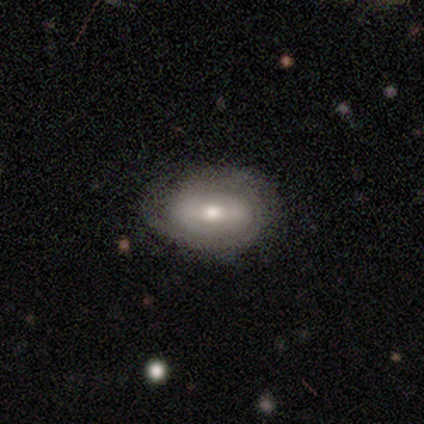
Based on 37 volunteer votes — smooth_or_featured: featured or disk (p=0.49) [alt: smooth p=0.41]
disk_edge_on: no (p=1.00)
bar: no (p=0.44) [alt: strong p=0.33]
has_spiral_arms: yes (p=0.67) [alt: no p=0.33]
spiral_winding: tight (p=1.00)
spiral_arm_count: can't tell (p=0.50) [alt: 2 p=0.33]
bulge_size: moderate (p=0.72) [alt: small p=0.22]
merging: none (p=0.70) [alt: minor disturbance p=0.27]